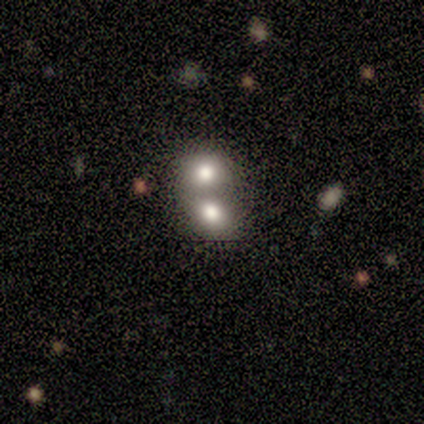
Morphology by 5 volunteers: smooth-or-featured: smooth: 80% | featured or disk: 20% | star or artifact: 0%
  how-rounded: in between: 75% | round: 25% | cigar-shaped: 0%
  merging: merger: 80% | none: 20% | minor disturbance: 0% | major disturbance: 0%